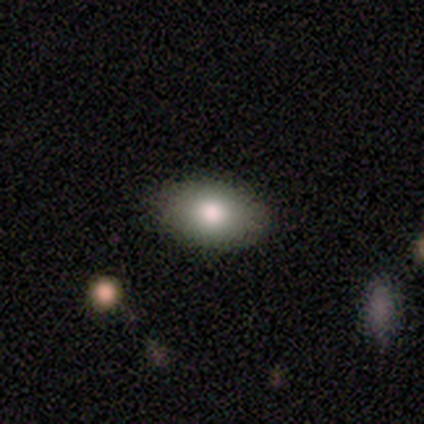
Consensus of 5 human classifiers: A smooth galaxy with no disk features (80%) that is in between round and cigar-shaped (100%).

Vote fractions:
- Smooth or featured? smooth: 80% / featured or disk: 20% / star or artifact: 0%
- How rounded? in between: 100% / round: 0% / cigar-shaped: 0%
- Merging? none: 100% / minor disturbance: 0% / major disturbance: 0% / merger: 0%